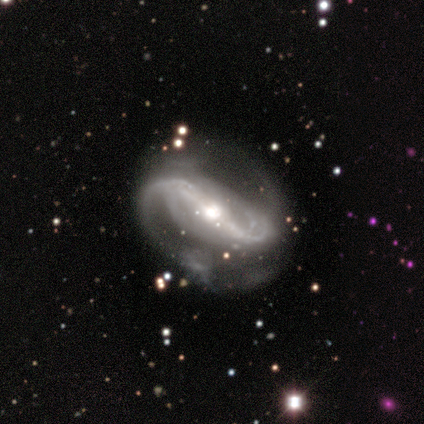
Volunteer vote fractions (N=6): A featured or disk galaxy (83%) with a strong bar (100%), 2 (100%) medium (40%, tied with loose) spiral arms (100%) and a moderate central bulge (60%).

Vote fractions:
- Smooth or featured? featured or disk: 83% / smooth: 17% / star or artifact: 0%
- Edge-on disk? no: 100% / yes: 0%
- Bar? strong: 100% / weak: 0% / no: 0%
- Spiral arms? yes: 100% / no: 0%
- Spiral winding? medium: 40% (tied) / loose: 40% (tied) / tight: 20%
- Spiral arm count? 2: 100% / 1: 0% / 3: 0% / 4: 0% / more than 4: 0% / can't tell: 0%
- Bulge size? moderate: 60% / large: 20% / small: 20% / dominant: 0% / none: 0%
- Merging? none: 67% / minor disturbance: 17% / major disturbance: 17% / merger: 0%